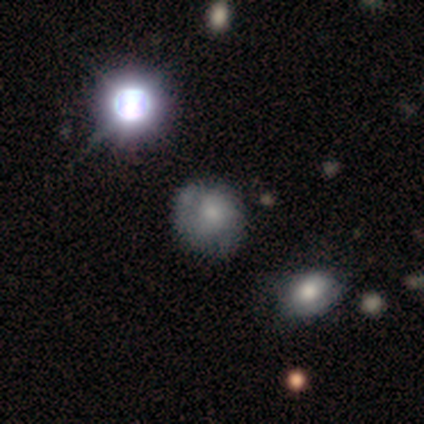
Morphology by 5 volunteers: This appears to be a smooth galaxy with no disk features (80%) that is round (75%). Merging: minor disturbance (50%).